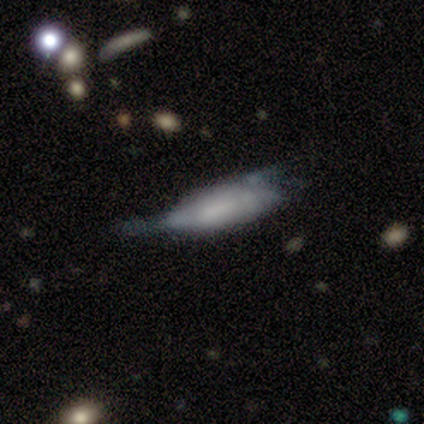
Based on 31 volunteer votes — This is possibly a smooth galaxy (52%). How rounded: likely in between (62%). Merging: marginally major disturbance (34%).